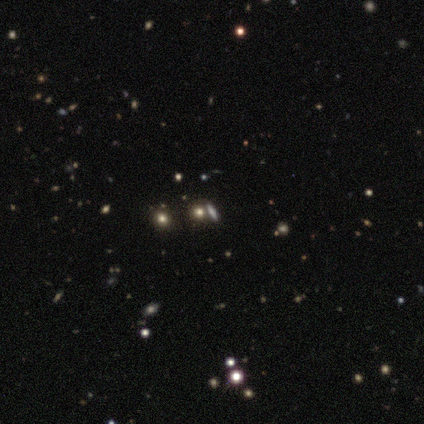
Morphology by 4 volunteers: smooth 100%, featured or disk 0%, star or artifact 0%. Down the decision tree: how rounded — cigar-shaped (50%); merging — none (50%).